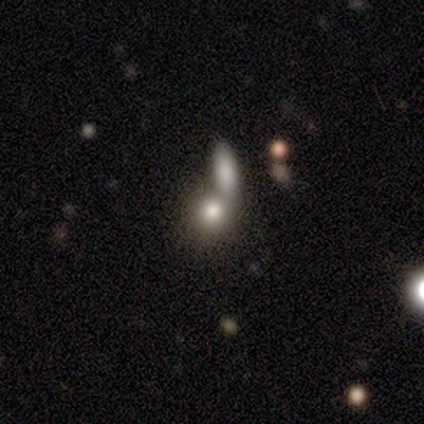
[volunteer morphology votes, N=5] smooth 60%, featured or disk 20%, star or artifact 20%. Down the decision tree: how rounded — round (100%); merging — none (50%, tied with merger).